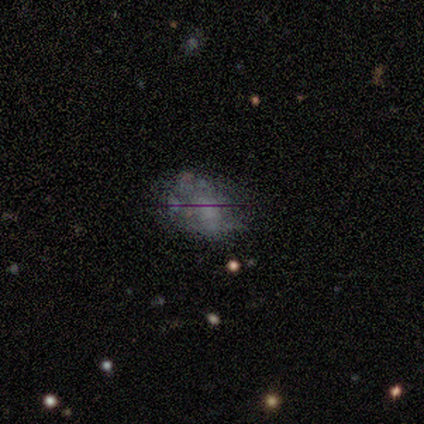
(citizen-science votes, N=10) This is possibly a featured or disk galaxy (50%). It is clearly not viewed edge-on (80%). Bar: likely no (75%). Spiral arm pattern: clearly no (100%). Central bulge: likely none (75%). Merging: likely none (67%).